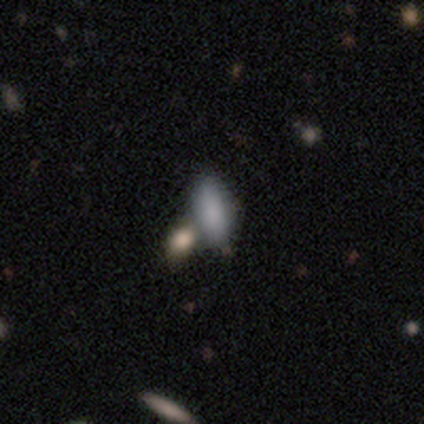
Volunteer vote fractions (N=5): A smooth galaxy with no disk features (80%) that is in between round and cigar-shaped (50%, tied with cigar-shaped). Merging: none (60%).